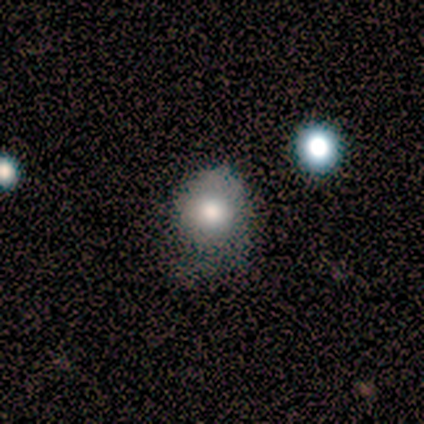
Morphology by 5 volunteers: smooth_or_featured: featured or disk (p=0.40) [tied with: star or artifact p=0.40]
disk_edge_on: no (p=1.00)
bar: no (p=1.00)
has_spiral_arms: yes (p=0.50) [tied with: no p=0.50]
spiral_winding: tight (p=1.00)
spiral_arm_count: 1 (p=1.00)
bulge_size: moderate (p=1.00)
merging: none (p=0.33) [tied with: minor disturbance p=0.33, major disturbance p=0.33]